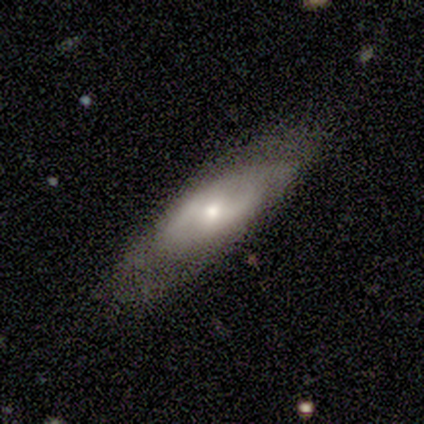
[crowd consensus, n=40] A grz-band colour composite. It shows a featured or disk galaxy (68%) with a weak bar (39%), 2 (92%) medium (46%) spiral arms (57%) and a moderate central bulge (61%). Merging: none (71%).